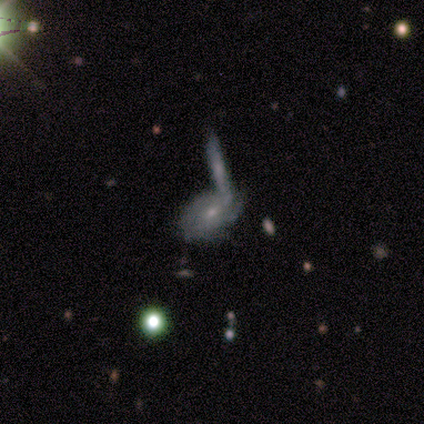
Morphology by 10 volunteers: Volunteers were most divided on "smooth or featured": featured or disk: 60%, smooth: 30%, star or artifact: 10%. More confident: edge-on disk — no (100%); spiral arms — yes (83%); bulge size — small (83%); spiral winding — tight (80%); bar — no (67%); merging — merger (67%); spiral arm count — can't tell (60%).